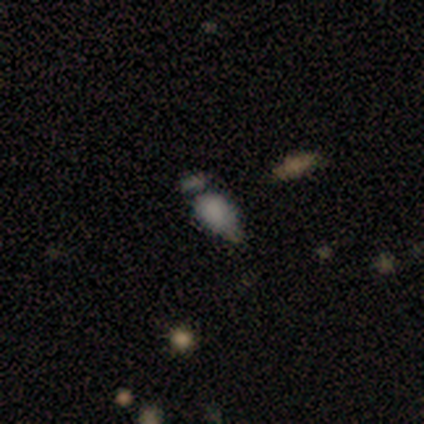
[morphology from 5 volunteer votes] Smooth or featured?
  - smooth: 60% *
  - featured or disk: 40%
  - star or artifact: 0%
How rounded?
  - in between: 67% *
  - cigar-shaped: 33%
  - round: 0%
Merging?
  - merger: 60% *
  - minor disturbance: 20%
  - major disturbance: 20%
  - none: 0%